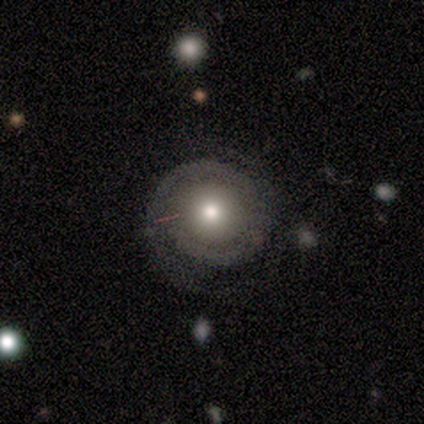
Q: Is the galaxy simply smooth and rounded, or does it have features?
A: featured or disk — 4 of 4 (100%).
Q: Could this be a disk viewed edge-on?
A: no — 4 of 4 (100%).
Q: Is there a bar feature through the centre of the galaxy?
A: no — 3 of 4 (75%).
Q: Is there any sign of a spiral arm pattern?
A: yes — 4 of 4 (100%).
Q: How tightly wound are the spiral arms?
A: tight — 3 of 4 (75%).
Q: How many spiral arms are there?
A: can't tell — 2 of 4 (50%).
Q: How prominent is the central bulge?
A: moderate — 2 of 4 (50%).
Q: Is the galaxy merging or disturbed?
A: none — 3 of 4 (75%).